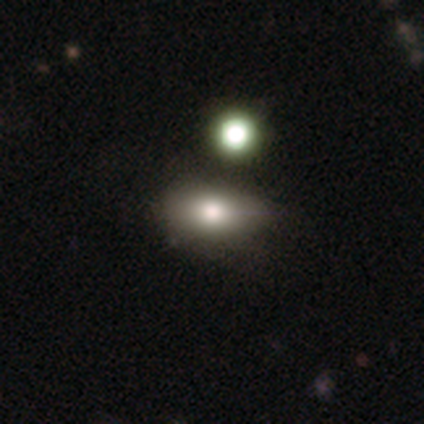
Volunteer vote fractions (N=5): Smooth or featured? 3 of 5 (60%) said smooth. How rounded? 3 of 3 (100%) said in between. Merging? 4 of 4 (100%) said none.